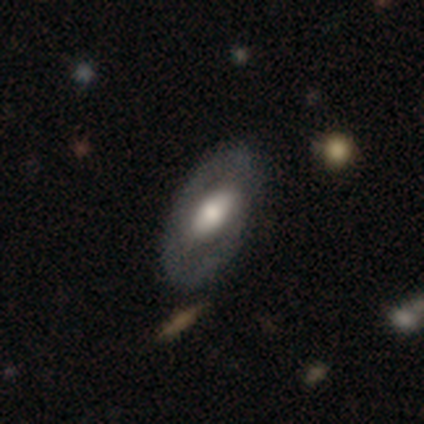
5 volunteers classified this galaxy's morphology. A smooth galaxy with no disk features (80%) that is in between round and cigar-shaped (100%).

Vote fractions:
- Smooth or featured? smooth: 80% / featured or disk: 20% / star or artifact: 0%
- How rounded? in between: 100% / round: 0% / cigar-shaped: 0%
- Merging? none: 80% / minor disturbance: 20% / major disturbance: 0% / merger: 0%